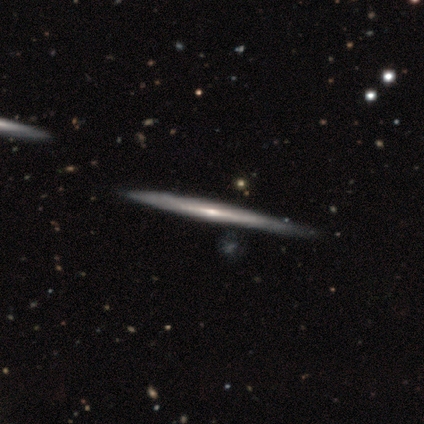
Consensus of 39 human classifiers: Smooth or featured? featured or disk (85%)
Edge-on disk? yes (97%)
Edge-on bulge? none (72%)
Merging? none (67%)